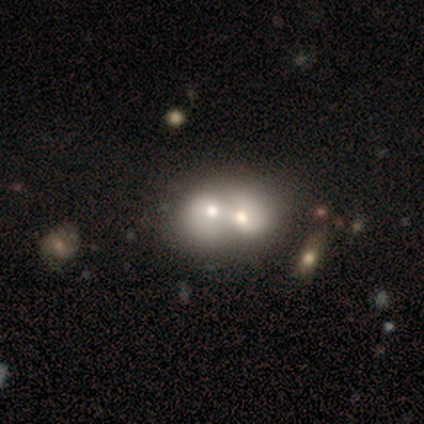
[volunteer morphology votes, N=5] smooth_or_featured: featured or disk (p=0.60) [alt: smooth p=0.40]
disk_edge_on: no (p=1.00)
bar: no (p=1.00)
has_spiral_arms: no (p=0.67) [alt: yes p=0.33]
bulge_size: moderate (p=0.67) [alt: small p=0.33]
merging: merger (p=1.00)